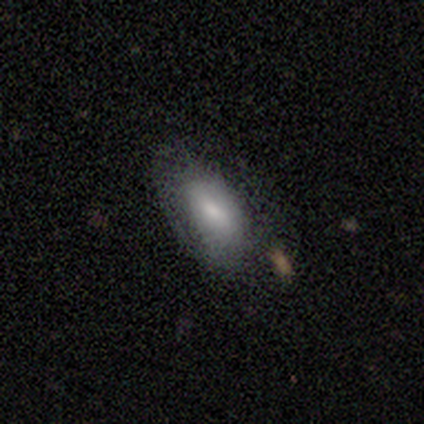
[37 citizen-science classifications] Smooth or featured: smooth — 81% (featured or disk — 16%)
How rounded: in between — 93% (cigar-shaped — 7%)
Merging: none — 61% (minor disturbance — 28%)